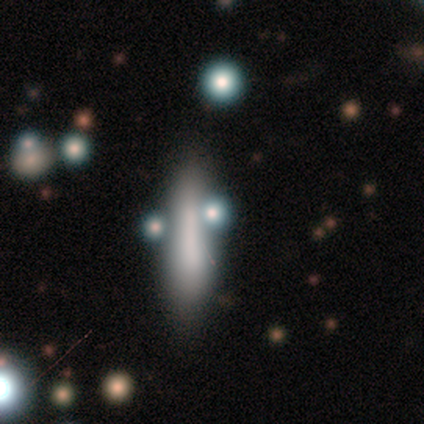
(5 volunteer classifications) Q: Smooth or featured?
A: smooth (60%); runner-up: featured or disk (20%)
Q: How rounded?
A: in between (67%); runner-up: cigar-shaped (33%)
Q: Merging?
A: major disturbance (50%); runner-up: none (25%)